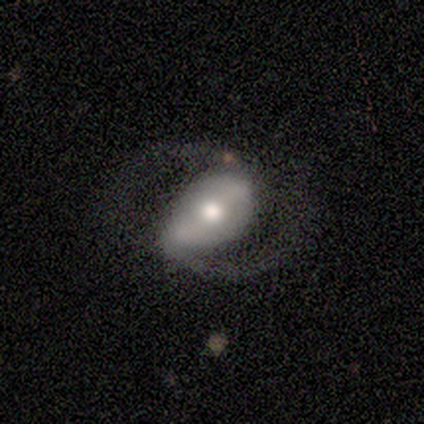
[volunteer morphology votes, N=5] Q: Smooth or featured?
A: featured or disk (80%); runner-up: star or artifact (20%)
Q: Edge-on disk?
A: no (100%)
Q: Bar?
A: strong (50%); tied with: weak (50%)
Q: Spiral arms?
A: yes (100%)
Q: Spiral winding?
A: medium (50%); tied with: loose (50%)
Q: Spiral arm count?
A: 2 (100%)
Q: Bulge size?
A: moderate (50%); runner-up: large (25%)
Q: Merging?
A: none (75%); runner-up: minor disturbance (25%)